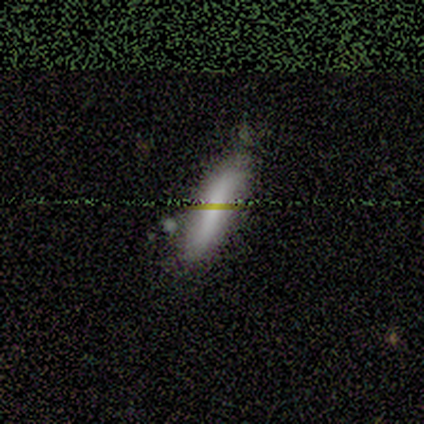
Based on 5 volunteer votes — A smooth galaxy with no disk features (40%, tied with featured or disk) that is cigar-shaped (100%). Merging: none (75%).